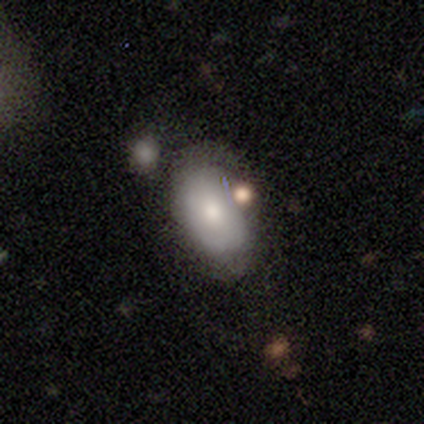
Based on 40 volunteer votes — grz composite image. It shows a smooth galaxy with no disk features (65%) that is in between round and cigar-shaped (85%). Merging: none (44%).